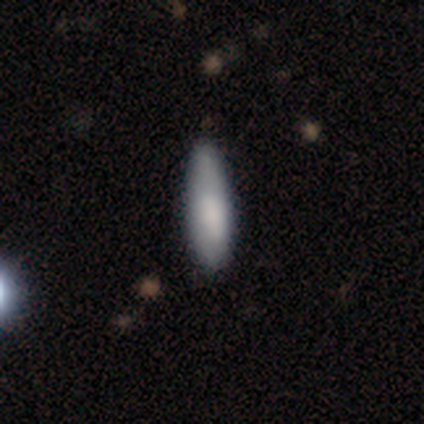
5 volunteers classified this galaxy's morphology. Q: Smooth or featured?
A: smooth (80%); runner-up: featured or disk (20%)
Q: How rounded?
A: in between (50%); tied with: cigar-shaped (50%)
Q: Merging?
A: none (60%); runner-up: minor disturbance (40%)